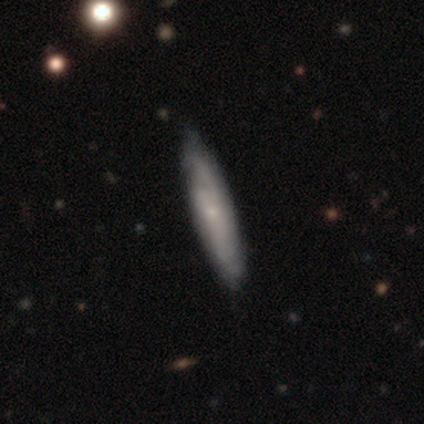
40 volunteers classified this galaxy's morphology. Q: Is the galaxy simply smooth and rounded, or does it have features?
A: featured or disk — 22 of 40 (55%).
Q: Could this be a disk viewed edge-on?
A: no — 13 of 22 (59%).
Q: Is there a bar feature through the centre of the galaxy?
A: no — 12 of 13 (92%).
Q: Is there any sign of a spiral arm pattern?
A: yes — 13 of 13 (100%).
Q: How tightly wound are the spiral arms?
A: tight — 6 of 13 (46%, tied with medium).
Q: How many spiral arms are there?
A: can't tell — 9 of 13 (69%).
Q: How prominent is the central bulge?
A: small — 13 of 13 (100%).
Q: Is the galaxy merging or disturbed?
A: none — 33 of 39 (85%).